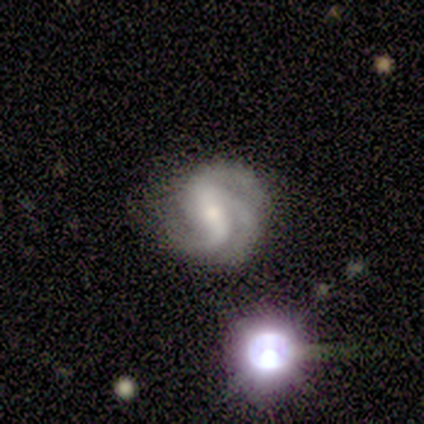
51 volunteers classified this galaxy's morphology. A featured or disk galaxy (94%) with a strong bar (51%), 3 (67%) medium (49%) spiral arms (96%) and a moderate central bulge (51%). Merging: none (69%).